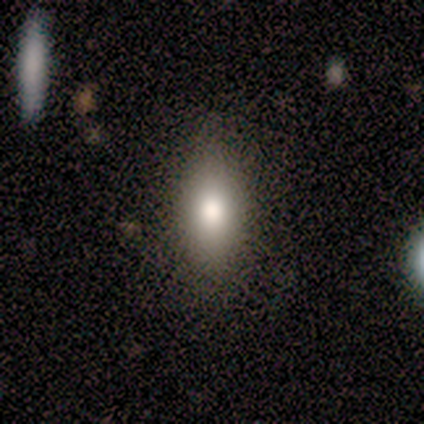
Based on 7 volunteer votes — Overall: smooth (71%). How rounded: in between (80%). Merging: none (80%).